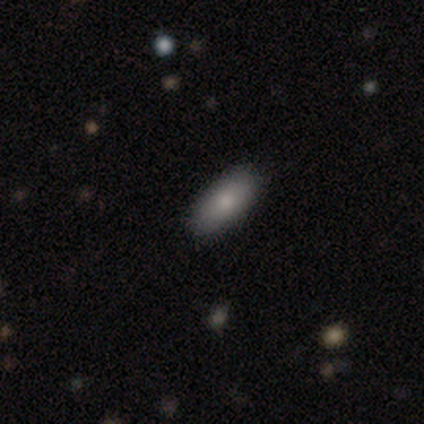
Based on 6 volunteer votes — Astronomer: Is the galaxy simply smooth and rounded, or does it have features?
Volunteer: smooth — 83%.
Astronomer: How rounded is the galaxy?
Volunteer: in between — 80%.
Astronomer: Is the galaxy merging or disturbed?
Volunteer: none — 100%.